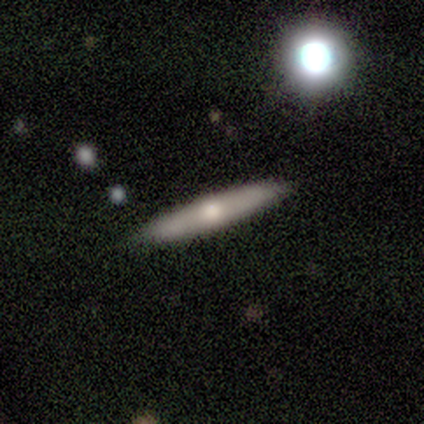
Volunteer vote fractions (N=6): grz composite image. It shows a featured or disk galaxy (67%) viewed edge-on (100%) with a rounded central bulge (100%). Merging: none (100%).